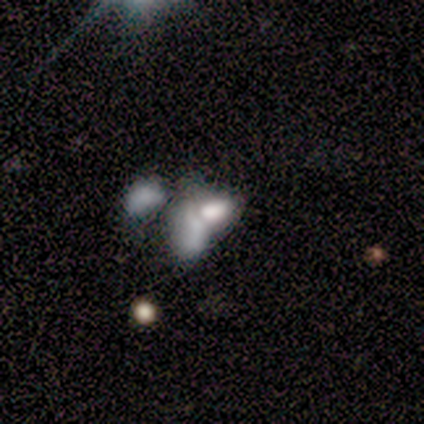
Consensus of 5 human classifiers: This is likely a smooth galaxy (60%). How rounded: clearly in between (100%). Merging: likely merger (60%).